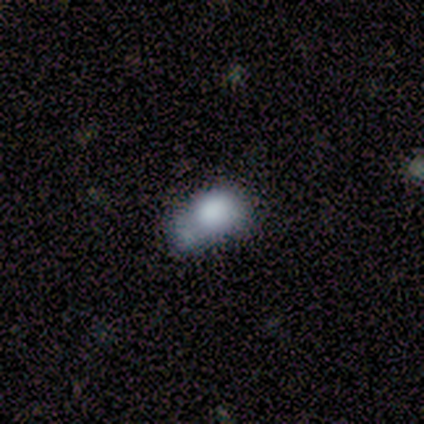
This appears to be a smooth galaxy with no disk features (40%, tied with featured or disk) that is round (50%, tied with in between). Merging: merger (50%).